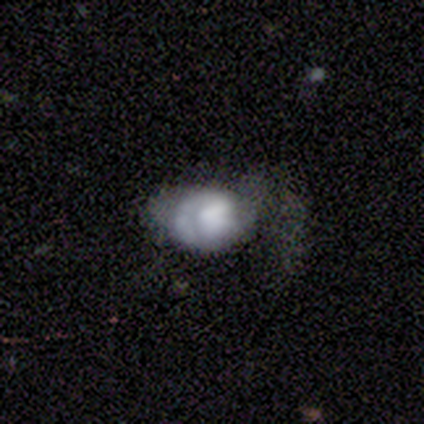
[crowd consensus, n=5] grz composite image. It shows a featured or disk galaxy (80%) with no bar (100%), 1 (67%) tight (67%) spiral arms (75%) and a dominant central bulge (25%, tied with large, moderate and small). Merging: none (60%).